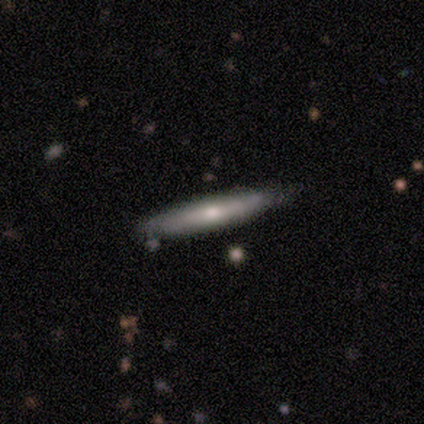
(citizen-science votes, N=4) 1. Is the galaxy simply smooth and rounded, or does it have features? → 100% featured or disk, 0% smooth, 0% star or artifact.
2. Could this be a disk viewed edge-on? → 50% yes (tied), 50% no (tied).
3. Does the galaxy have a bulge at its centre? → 100% rounded, 0% boxy, 0% none.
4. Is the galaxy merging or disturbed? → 75% none, 25% minor disturbance, 0% major disturbance, 0% merger.